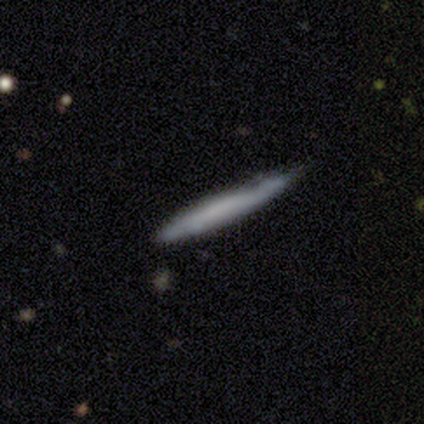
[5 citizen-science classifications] This is clearly a smooth galaxy (80%). How rounded: clearly cigar-shaped (100%). Merging: clearly none (80%).